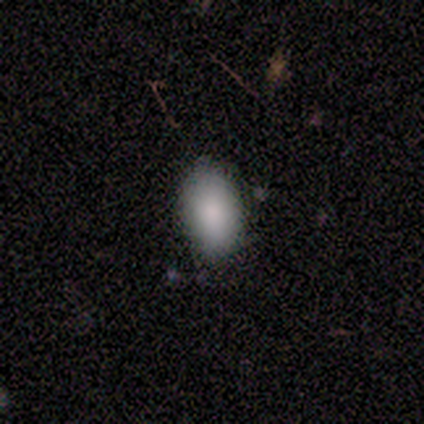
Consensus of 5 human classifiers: Smooth or featured? 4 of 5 (80%) said smooth. How rounded? 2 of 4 (50%, tied with in between) said round. Merging? 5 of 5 (100%) said none.